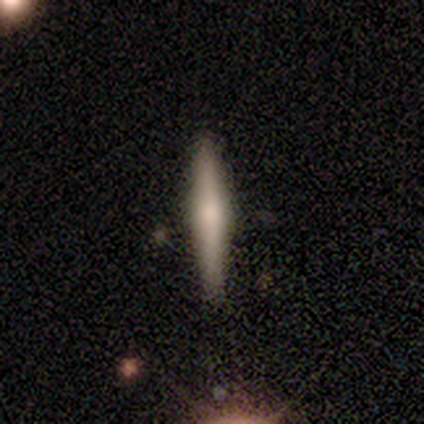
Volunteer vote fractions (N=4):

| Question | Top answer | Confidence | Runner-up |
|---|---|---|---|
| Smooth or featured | featured or disk | 75% | smooth (25%) |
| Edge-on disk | yes | 100% | — |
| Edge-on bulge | rounded | 67% | none (33%) |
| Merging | none | 75% | major disturbance (25%) |